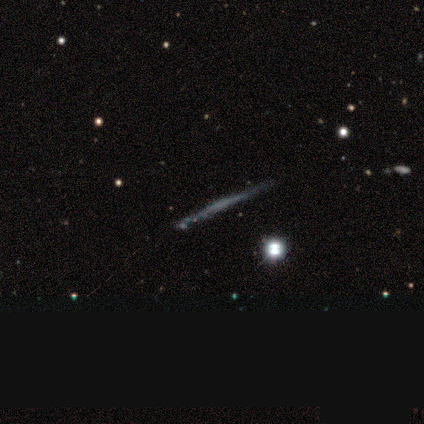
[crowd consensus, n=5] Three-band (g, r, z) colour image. It shows a featured or disk galaxy (100%) viewed edge-on (100%) with no central bulge (80%). Merging: none (100%).